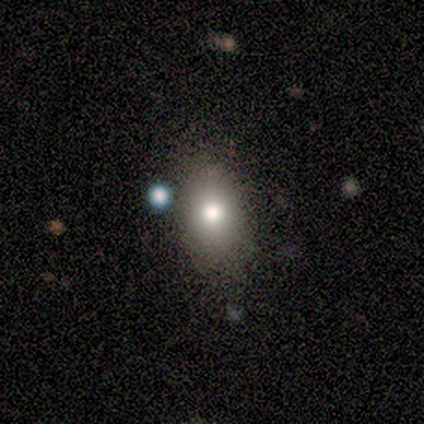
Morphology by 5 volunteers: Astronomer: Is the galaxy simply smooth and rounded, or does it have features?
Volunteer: smooth — 80%.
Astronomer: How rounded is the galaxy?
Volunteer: in between — 100%.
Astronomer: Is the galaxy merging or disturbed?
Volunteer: none — 100%.